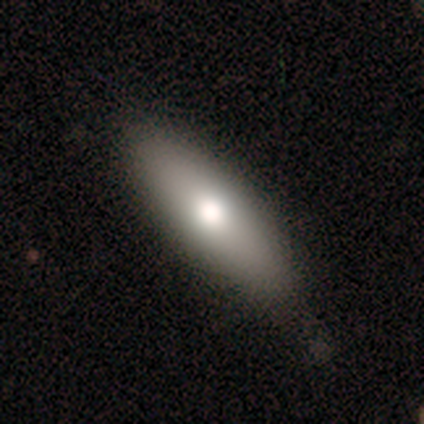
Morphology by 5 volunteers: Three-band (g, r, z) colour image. It shows a smooth galaxy with no disk features (60%) that is in between round and cigar-shaped (67%). Merging: none (75%).